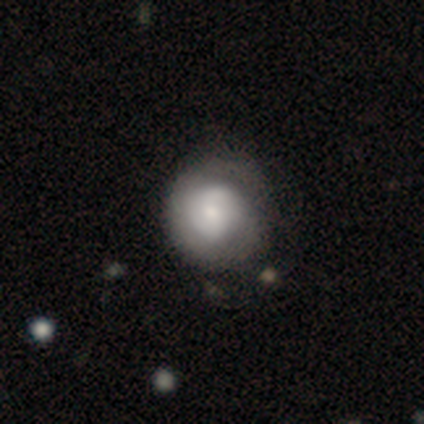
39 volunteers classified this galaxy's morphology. Smooth or featured: featured or disk — 59% (smooth — 38%)
Edge-on disk: no — 100%
Bar: no — 65% (weak — 30%)
Spiral arms: yes — 57% (no — 43%)
Spiral winding: tight — 54% (medium — 38%)
Spiral arm count: 2 — 54% (can't tell — 38%)
Bulge size: moderate — 39% (small — 35%)
Merging: none — 61% (minor disturbance — 11%)